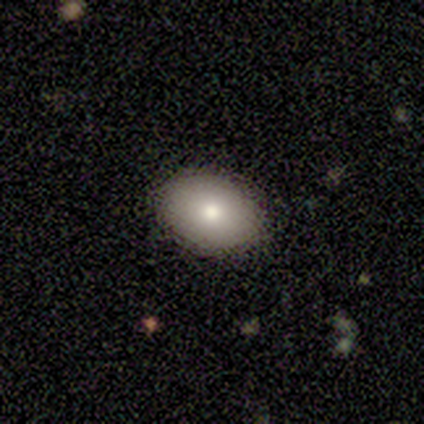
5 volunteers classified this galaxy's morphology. smooth_or_featured: smooth (p=0.80) [alt: featured or disk p=0.20]
how_rounded: in between (p=1.00)
merging: none (p=0.80) [alt: minor disturbance p=0.20]